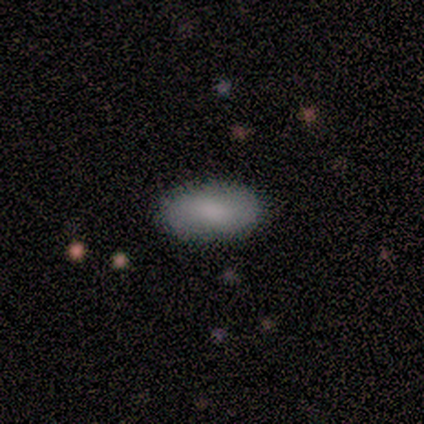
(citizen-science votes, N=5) Morphology: type=smooth (80%); roundness=in between (100%); merging=none (100%).